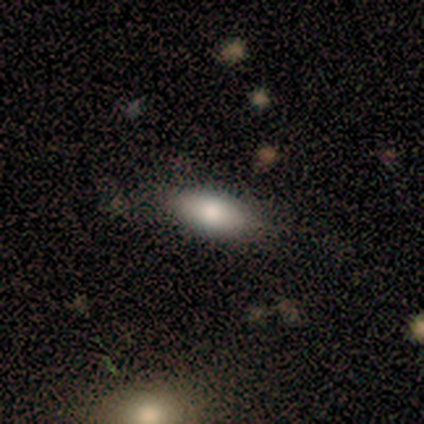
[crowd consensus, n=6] Smooth or featured? 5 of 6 (83%) said smooth. How rounded? 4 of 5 (80%) said in between. Merging? 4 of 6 (67%) said none.